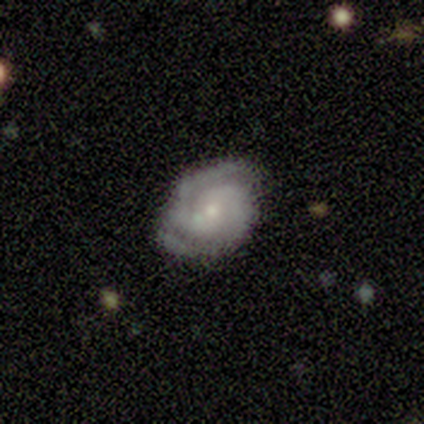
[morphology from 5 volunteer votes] Smooth or featured? 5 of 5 (100%) said featured or disk. Edge-on disk? 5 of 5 (100%) said no. Bar? 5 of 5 (100%) said no. Spiral arms? 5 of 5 (100%) said yes. Spiral winding? 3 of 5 (60%) said tight. Spiral arm count? 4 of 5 (80%) said 2. Bulge size? 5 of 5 (100%) said small. Merging? 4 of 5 (80%) said none.